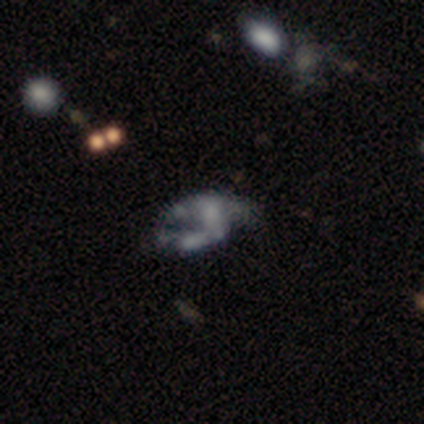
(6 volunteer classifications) Smooth or featured? 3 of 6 (50%) said featured or disk. Edge-on disk? 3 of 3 (100%) said no. Bar? 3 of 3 (100%) said no. Spiral arms? 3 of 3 (100%) said no. Bulge size? 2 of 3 (67%) said none. Merging? 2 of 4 (50%, tied with merger) said major disturbance.